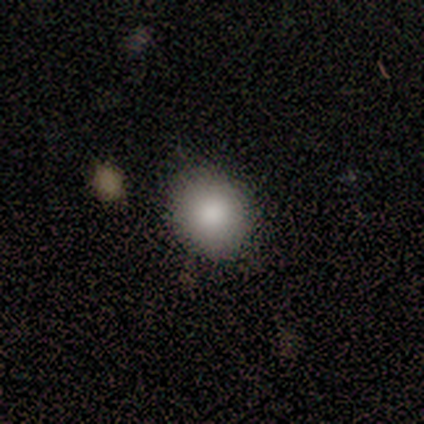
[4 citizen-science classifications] Morphology: type=smooth (100%); roundness=round (75%); merging=none (75%).